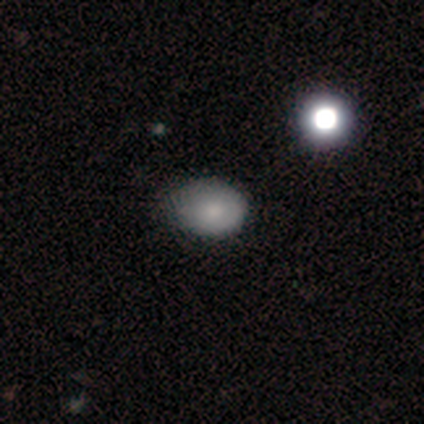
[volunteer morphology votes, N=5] smooth 80%, featured or disk 20%, star or artifact 0%. Down the decision tree: how rounded — in between (75%); merging — none (60%).